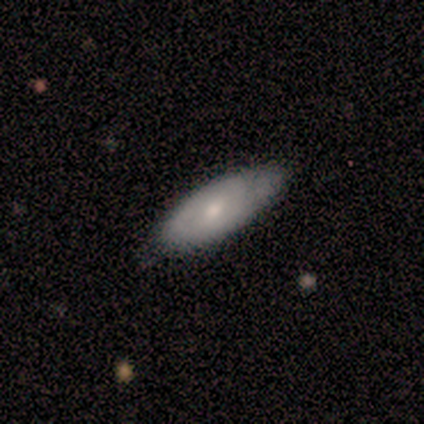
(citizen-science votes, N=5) Smooth or featured? smooth (60%)
How rounded? in between (100%)
Merging? none (80%)